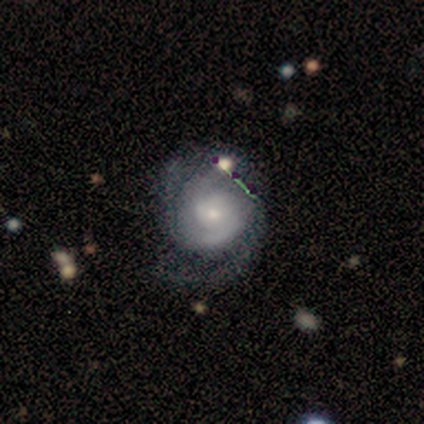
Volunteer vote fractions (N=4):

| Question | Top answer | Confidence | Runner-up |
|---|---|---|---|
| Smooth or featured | featured or disk | 100% | — |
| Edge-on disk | no | 100% | — |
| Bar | no | 75% | weak (25%) |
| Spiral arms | yes | 100% | — |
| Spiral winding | medium | 50% | tight (25%) |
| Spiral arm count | can't tell | 50% | 2 (25%) |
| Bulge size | small | 75% | moderate (25%) |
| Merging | minor disturbance | 50% | none (25%) |